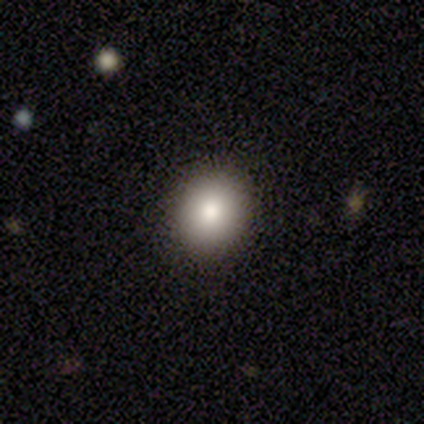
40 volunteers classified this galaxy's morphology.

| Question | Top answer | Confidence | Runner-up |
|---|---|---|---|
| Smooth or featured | smooth | 88% | star or artifact (8%) |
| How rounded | round | 69% | in between (31%) |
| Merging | none | 92% | minor disturbance (5%) |